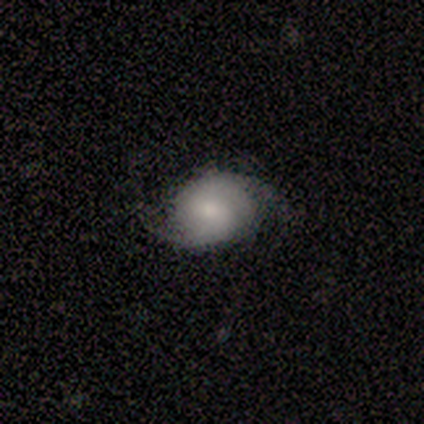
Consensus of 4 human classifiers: Volunteers were most divided on "smooth or featured" (2-way tie): smooth: 50%, featured or disk: 50%, star or artifact: 0%; "merging" (2-way tie): none: 50%, minor disturbance: 50%, major disturbance: 0%, merger: 0%. More confident: how rounded — in between (100%).